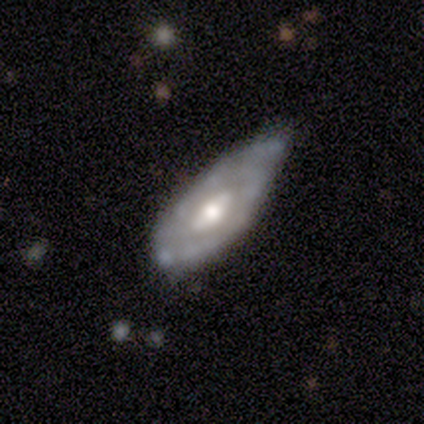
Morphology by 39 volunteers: smooth_or_featured: featured or disk (p=0.87) [alt: smooth p=0.10]
disk_edge_on: no (p=0.94) [alt: yes p=0.06]
bar: no (p=0.50) [alt: weak p=0.38]
has_spiral_arms: yes (p=0.50) [tied with: no p=0.50]
spiral_winding: tight (p=0.69) [alt: medium p=0.25]
spiral_arm_count: 2 (p=0.50) [alt: can't tell p=0.38]
bulge_size: moderate (p=0.88) [alt: large p=0.06]
merging: minor disturbance (p=0.50) [alt: none p=0.39]